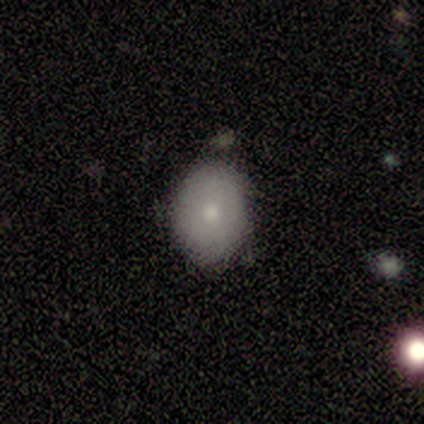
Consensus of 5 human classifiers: Volunteers were most divided on "how rounded": in between: 67%, round: 33%, cigar-shaped: 0%. More confident: merging — none (100%); smooth or featured — smooth (60%).